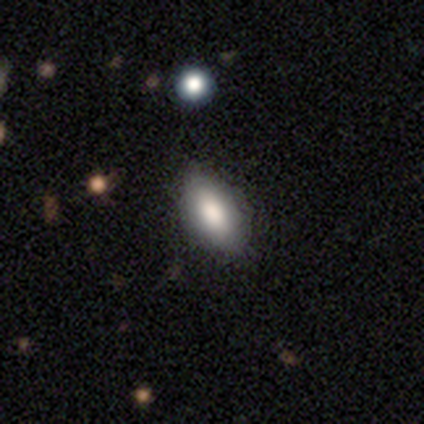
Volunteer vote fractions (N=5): Smooth or featured? smooth (60%)
How rounded? in between (100%)
Merging? none (80%)